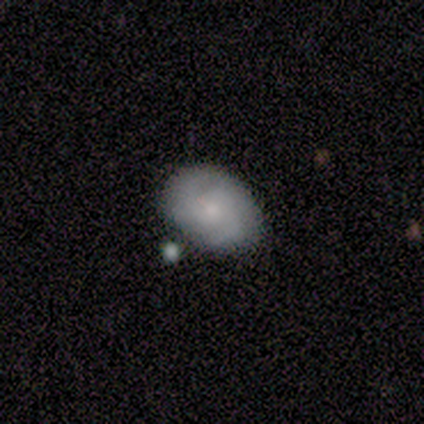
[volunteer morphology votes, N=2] smooth_or_featured: smooth (p=0.50) [tied with: featured or disk p=0.50]
how_rounded: in between (p=1.00)
merging: none (p=1.00)